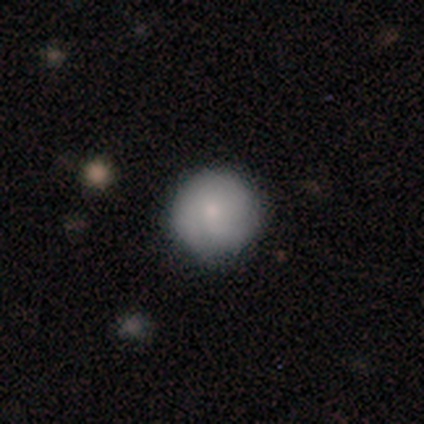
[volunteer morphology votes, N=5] This appears to be a smooth galaxy with no disk features (60%) that is round (100%). Merging: none (75%).